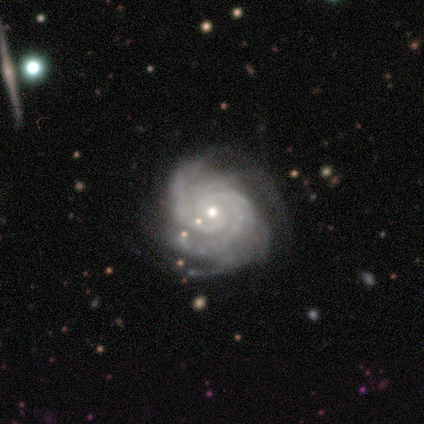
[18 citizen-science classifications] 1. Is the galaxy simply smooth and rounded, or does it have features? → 94% featured or disk, 6% star or artifact, 0% smooth.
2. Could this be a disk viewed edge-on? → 94% no, 6% yes.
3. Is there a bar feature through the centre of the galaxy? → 88% no, 6% strong, 6% weak.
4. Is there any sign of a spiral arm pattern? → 100% yes, 0% no.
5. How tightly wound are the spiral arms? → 100% tight, 0% medium, 0% loose.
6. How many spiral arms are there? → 31% 4, 25% 2, 19% 3, 19% more than 4, 6% can't tell, 0% 1.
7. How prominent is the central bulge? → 50% moderate, 44% small, 6% none, 0% dominant, 0% large.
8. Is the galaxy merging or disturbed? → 59% none, 41% minor disturbance, 0% major disturbance, 0% merger.